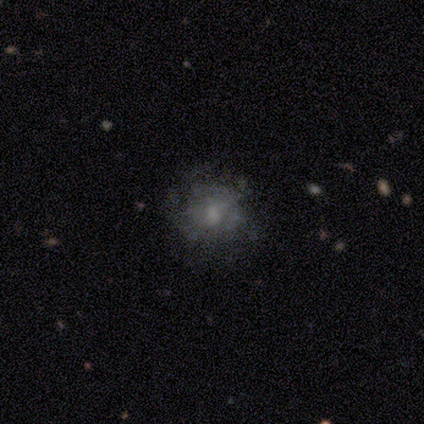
smooth 41%, featured or disk 33%, star or artifact 26%. Down the decision tree: how rounded — round (81%); merging — none (72%).